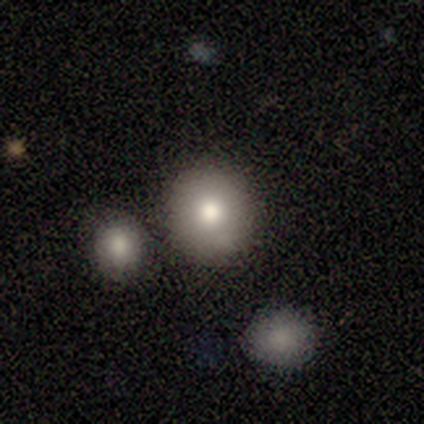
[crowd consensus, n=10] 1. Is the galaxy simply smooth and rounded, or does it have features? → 80% smooth, 10% featured or disk, 10% star or artifact.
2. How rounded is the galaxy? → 88% round, 12% in between, 0% cigar-shaped.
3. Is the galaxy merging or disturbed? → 89% none, 11% merger, 0% minor disturbance, 0% major disturbance.